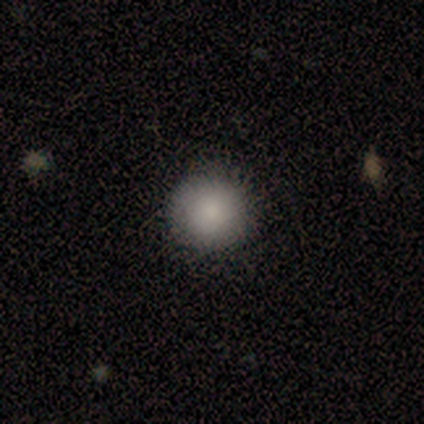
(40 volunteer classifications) A smooth galaxy with no disk features (80%) that is round (94%). Merging: none (94%).